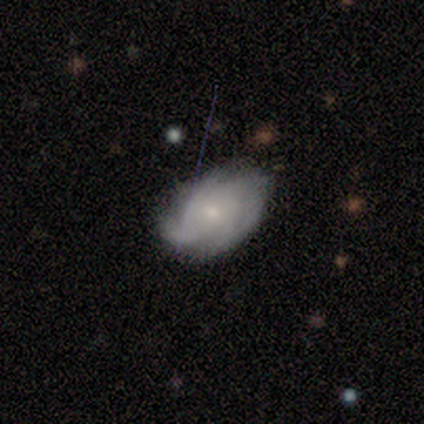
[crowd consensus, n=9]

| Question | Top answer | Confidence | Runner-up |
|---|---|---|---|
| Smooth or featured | featured or disk | 78% | smooth (22%) |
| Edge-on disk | no | 71% | yes (29%) |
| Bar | no | 60% | weak (40%) |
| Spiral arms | yes | 100% | — |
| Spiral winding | tight | 60% | medium (40%) |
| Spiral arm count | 4 | 40% | tied: can't tell (40%) |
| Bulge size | small | 100% | — |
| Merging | none | 67% | minor disturbance (33%) |